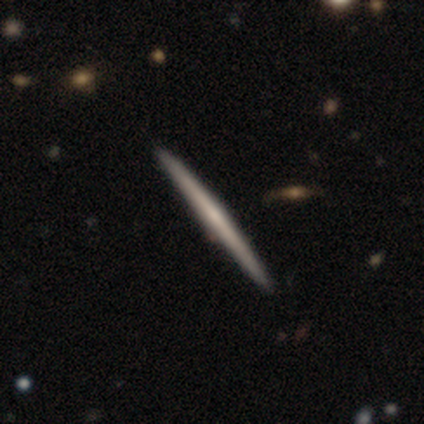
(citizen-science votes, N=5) smooth_or_featured: featured or disk (p=0.80) [alt: smooth p=0.20]
disk_edge_on: yes (p=1.00)
edge_on_bulge: none (p=1.00)
merging: none (p=1.00)